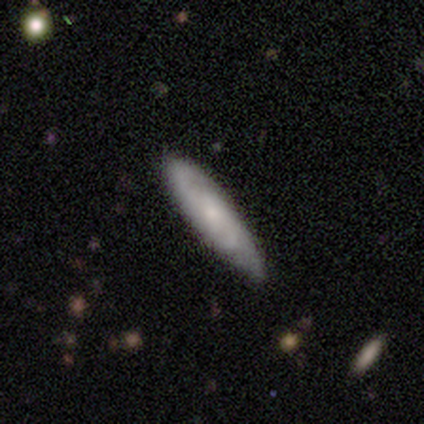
This is possibly a featured or disk galaxy (57%). It is clearly not viewed edge-on (81%). Bar: likely no (65%). Spiral arm pattern: clearly yes (100%). Spiral arm count: possibly 2 (53%). Spiral winding: possibly medium (53%). Central bulge: likely small (65%). Merging: marginally none (27%).